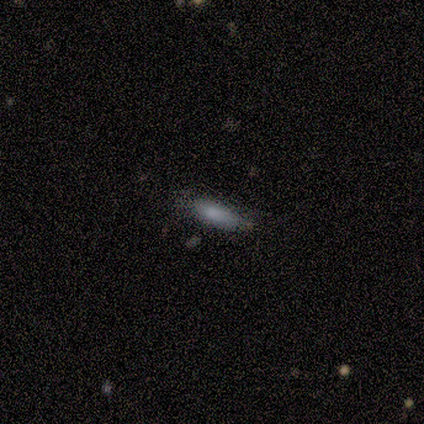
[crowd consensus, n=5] smooth_or_featured: smooth (p=1.00)
how_rounded: cigar-shaped (p=0.60) [alt: in between p=0.40]
merging: none (p=0.60) [alt: minor disturbance p=0.40]